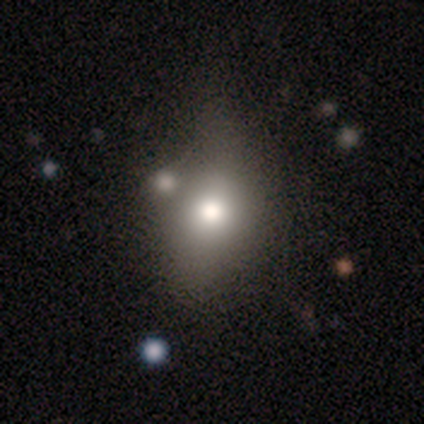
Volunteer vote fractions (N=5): smooth_or_featured: smooth (p=0.40) [tied with: featured or disk p=0.40]
how_rounded: round (p=0.50) [tied with: in between p=0.50]
merging: none (p=0.50) [alt: minor disturbance p=0.25]